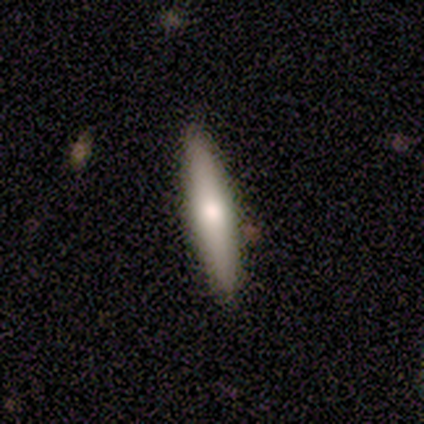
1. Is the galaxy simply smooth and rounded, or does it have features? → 50% featured or disk, 25% smooth, 25% star or artifact.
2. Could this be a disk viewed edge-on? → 100% yes, 0% no.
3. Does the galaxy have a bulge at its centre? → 100% rounded, 0% boxy, 0% none.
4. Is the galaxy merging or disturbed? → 100% none, 0% minor disturbance, 0% major disturbance, 0% merger.